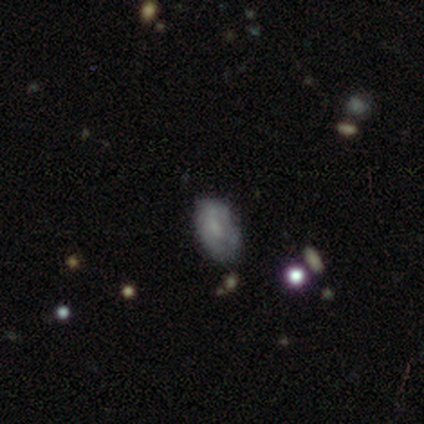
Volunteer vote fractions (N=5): A smooth galaxy with no disk features (60%) that is in between round and cigar-shaped (100%).

Vote fractions:
- Smooth or featured? smooth: 60% / featured or disk: 40% / star or artifact: 0%
- How rounded? in between: 100% / round: 0% / cigar-shaped: 0%
- Merging? minor disturbance: 60% / none: 40% / major disturbance: 0% / merger: 0%